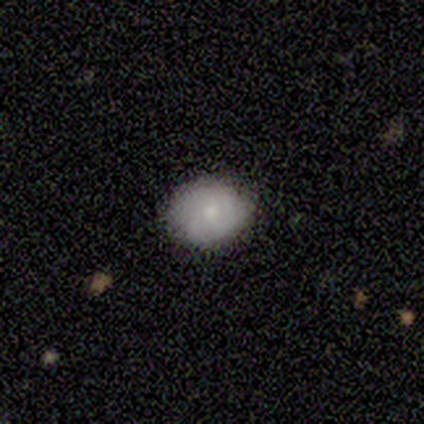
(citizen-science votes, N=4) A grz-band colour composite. It shows a smooth galaxy with no disk features (50%, tied with star or artifact) that is round (50%, tied with in between). Merging: none (100%).